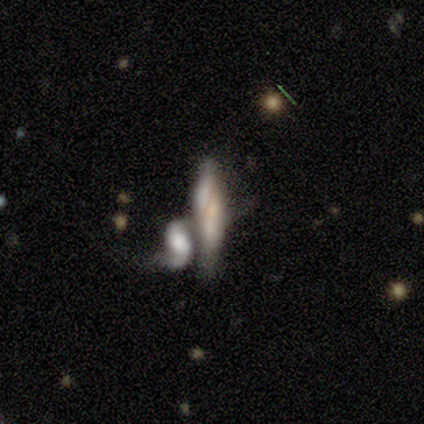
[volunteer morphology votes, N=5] Smooth or featured? featured or disk (60%)
Edge-on disk? no (100%)
Bar? no (67%)
Spiral arms? no (100%)
Bulge size? none (67%)
Merging? merger (60%)